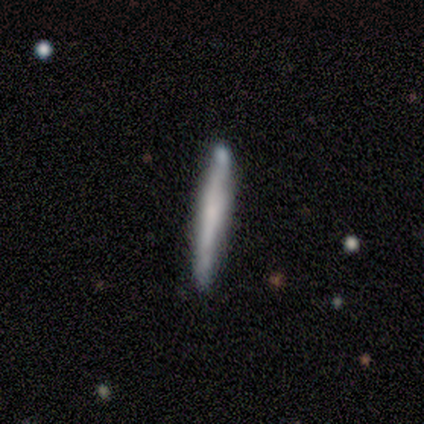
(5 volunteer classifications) smooth 60%, featured or disk 40%, star or artifact 0%. Down the decision tree: how rounded — cigar-shaped (100%); merging — minor disturbance (60%).